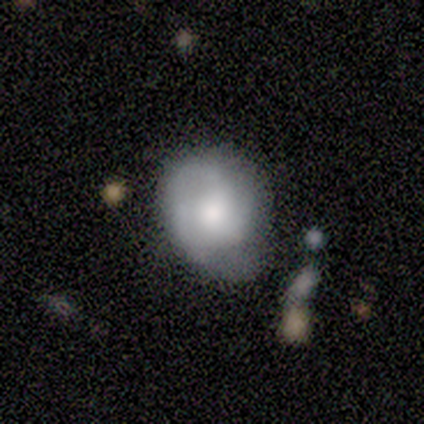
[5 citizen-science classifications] smooth_or_featured: featured or disk (p=0.60) [alt: star or artifact p=0.40]
disk_edge_on: no (p=1.00)
bar: no (p=1.00)
has_spiral_arms: no (p=1.00)
bulge_size: moderate (p=1.00)
merging: minor disturbance (p=0.67) [alt: none p=0.33]